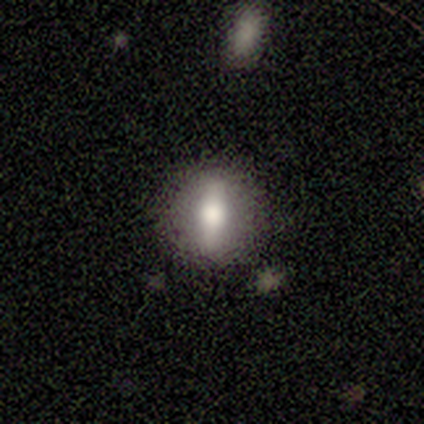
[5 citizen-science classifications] This is likely a featured or disk galaxy (60%). It is clearly not viewed edge-on (100%). Bar: likely strong (67%). Spiral arm pattern: clearly no (100%). Central bulge: clearly moderate (100%). Merging: clearly none (100%).